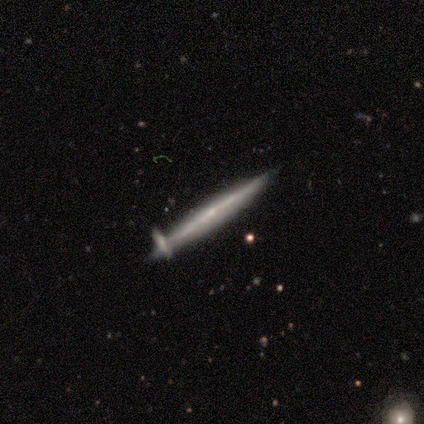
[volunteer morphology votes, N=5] Q: Smooth or featured?
A: featured or disk (80%); runner-up: smooth (20%)
Q: Edge-on disk?
A: yes (100%)
Q: Edge-on bulge?
A: none (100%)
Q: Merging?
A: none (60%); runner-up: minor disturbance (40%)